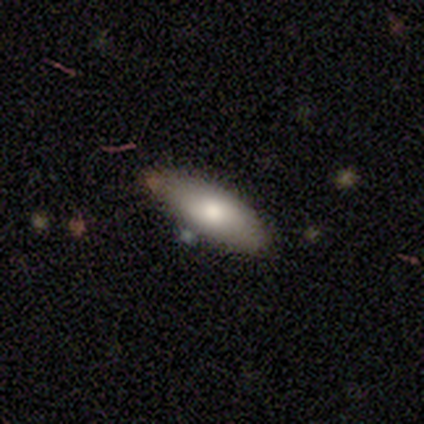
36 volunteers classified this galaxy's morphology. This is clearly a smooth galaxy (81%). How rounded: likely in between (76%). Merging: clearly none (91%).